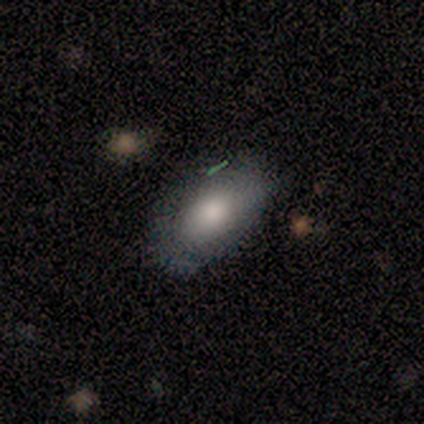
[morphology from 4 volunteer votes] Overall: smooth (75%). How rounded: in between (100%). Merging: none (100%).